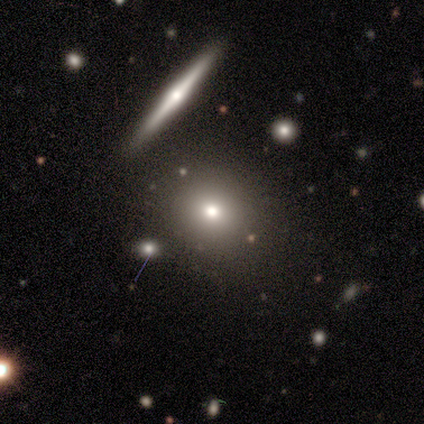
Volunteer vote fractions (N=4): Volunteers were most divided on "merging": none: 67%, minor disturbance: 33%, major disturbance: 0%, merger: 0%. More confident: how rounded — round (100%); smooth or featured — smooth (75%).